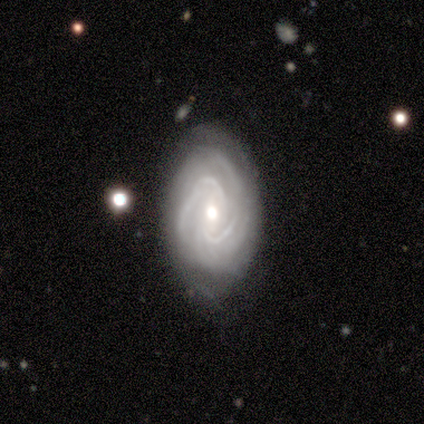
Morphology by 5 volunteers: Smooth or featured?
  - featured or disk: 100% *
  - smooth: 0%
  - star or artifact: 0%
Edge-on disk?
  - no: 100% *
  - yes: 0%
Bar?
  - weak: 40% * (tied)
  - no: 40% * (tied)
  - strong: 20%
Spiral arms?
  - yes: 100% *
  - no: 0%
Spiral winding?
  - medium: 60% *
  - tight: 40%
  - loose: 0%
Spiral arm count?
  - 2: 60% *
  - 3: 20%
  - can't tell: 20%
  - 1: 0%
  - 4: 0%
  - more than 4: 0%
Bulge size?
  - moderate: 80% *
  - large: 20%
  - dominant: 0%
  - small: 0%
  - none: 0%
Merging?
  - none: 100% *
  - minor disturbance: 0%
  - major disturbance: 0%
  - merger: 0%